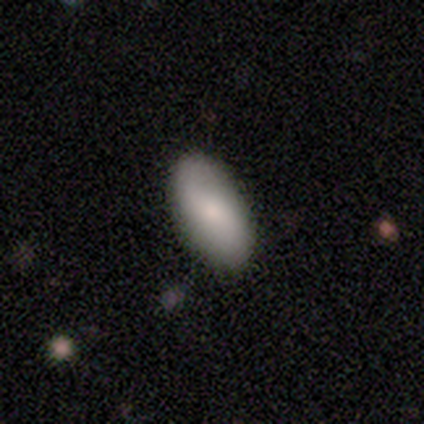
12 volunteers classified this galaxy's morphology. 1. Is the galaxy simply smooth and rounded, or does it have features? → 50% smooth (tied), 50% featured or disk (tied), 0% star or artifact.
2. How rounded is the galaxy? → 100% in between, 0% round, 0% cigar-shaped.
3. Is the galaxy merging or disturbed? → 100% none, 0% minor disturbance, 0% major disturbance, 0% merger.